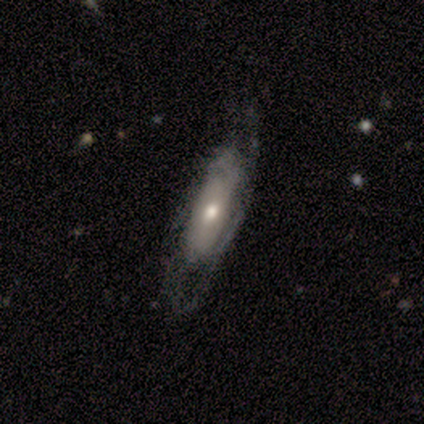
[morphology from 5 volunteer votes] A featured or disk galaxy (80%) with no bar (75%), tight (100%) spiral arms (50%, tied with no) and a moderate central bulge (50%, tied with small). Merging: none (80%).